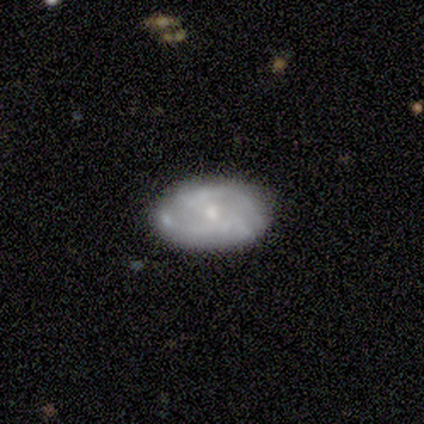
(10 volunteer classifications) A featured or disk galaxy (80%) with no bar (75%), 2 (50%) medium (50%) spiral arms (50%, tied with no) and a moderate central bulge (50%).

Vote fractions:
- Smooth or featured? featured or disk: 80% / smooth: 20% / star or artifact: 0%
- Edge-on disk? no: 100% / yes: 0%
- Bar? no: 75% / strong: 12% / weak: 12%
- Spiral arms? yes: 50% (tied) / no: 50% (tied)
- Spiral winding? medium: 50% / tight: 25% / loose: 25%
- Spiral arm count? 2: 50% / 1: 25% / can't tell: 25% / 3: 0% / 4: 0% / more than 4: 0%
- Bulge size? moderate: 50% / small: 38% / none: 12% / dominant: 0% / large: 0%
- Merging? none: 80% / minor disturbance: 10% / merger: 10% / major disturbance: 0%